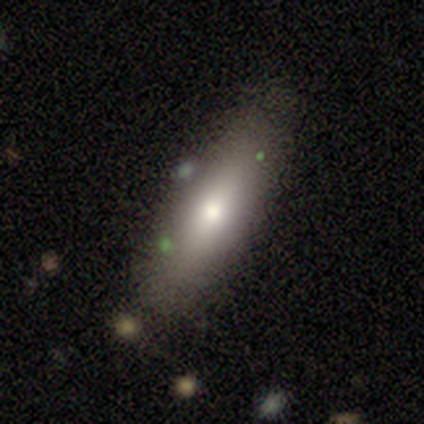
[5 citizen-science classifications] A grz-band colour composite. It shows a smooth galaxy with no disk features (80%) that is in between round and cigar-shaped (75%). Merging: none (100%).